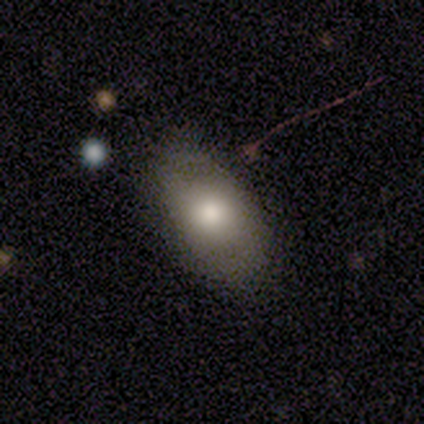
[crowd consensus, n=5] Smooth or featured? smooth (40%, tied with featured or disk)
How rounded? in between (100%)
Merging? none (100%)